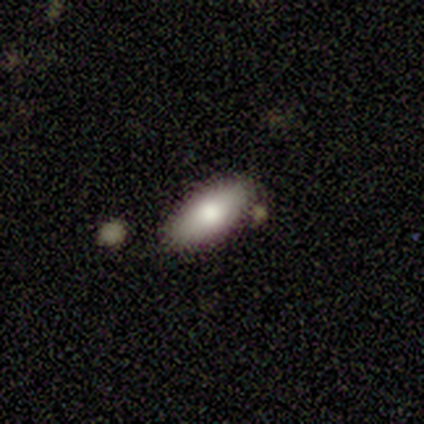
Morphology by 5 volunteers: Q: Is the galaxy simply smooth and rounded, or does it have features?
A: smooth — 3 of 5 (60%).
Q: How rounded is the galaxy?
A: in between — 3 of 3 (100%).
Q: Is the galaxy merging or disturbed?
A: none — 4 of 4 (100%).